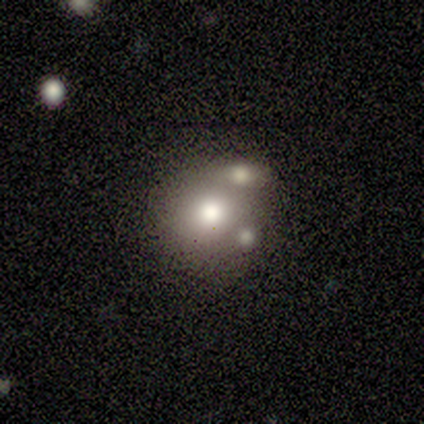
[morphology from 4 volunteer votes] type=smooth (100%); roundness=round (100%); merging=none (50%, tied with merger).